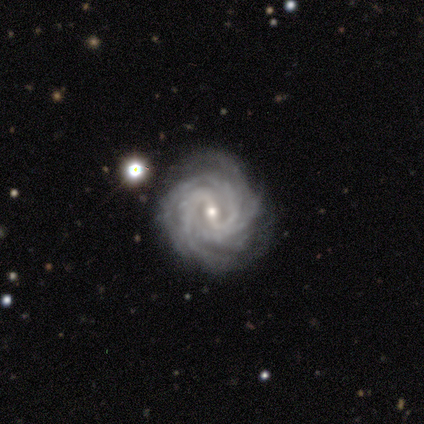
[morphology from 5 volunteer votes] smooth_or_featured: featured or disk (p=1.00)
disk_edge_on: no (p=1.00)
bar: weak (p=0.60) [alt: strong p=0.20]
has_spiral_arms: yes (p=1.00)
spiral_winding: tight (p=0.80) [alt: medium p=0.20]
spiral_arm_count: 4 (p=0.40) [alt: 2 p=0.20]
bulge_size: small (p=1.00)
merging: none (p=0.60) [alt: minor disturbance p=0.40]